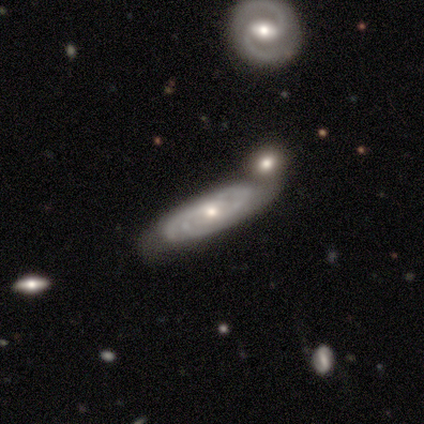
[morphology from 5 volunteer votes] This appears to be a featured or disk galaxy (80%) with no bar (75%), tight (50%, tied with medium) spiral arms (100%) and a moderate central bulge (50%). Merging: minor disturbance (40%, tied with merger).